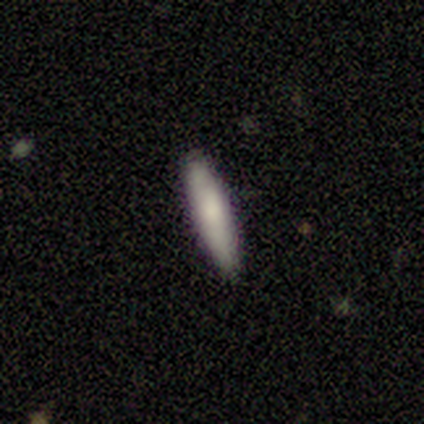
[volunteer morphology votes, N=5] Smooth or featured? smooth (80%)
How rounded? cigar-shaped (75%)
Merging? none (60%)